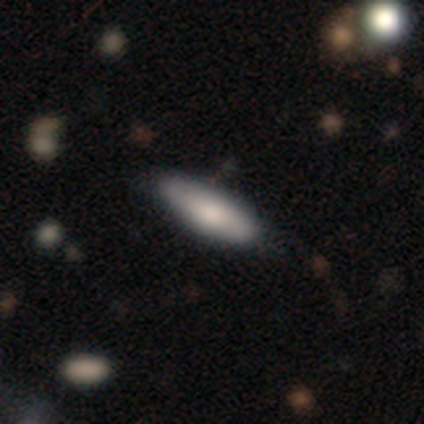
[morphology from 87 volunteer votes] Overall: smooth (75%). How rounded: cigar-shaped (52%; in between 48%). Merging: none (86%).